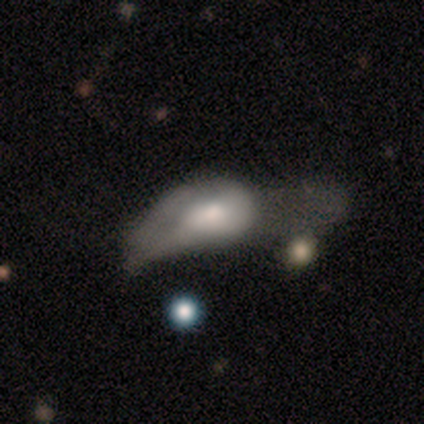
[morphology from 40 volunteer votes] smooth 68%, featured or disk 32%, star or artifact 0%. Down the decision tree: how rounded — in between (85%); merging — major disturbance (65%).